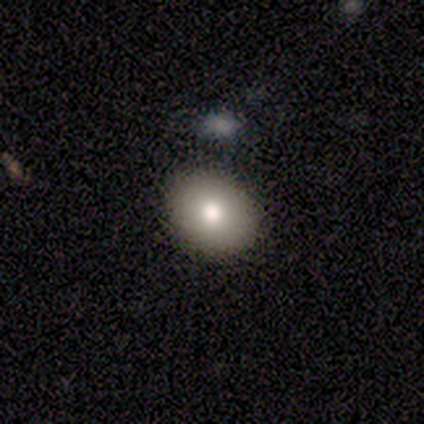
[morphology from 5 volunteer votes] Smooth or featured: smooth — 80% (star or artifact — 20%)
How rounded: round — 75% (in between — 25%)
Merging: none — 75% (merger — 25%)